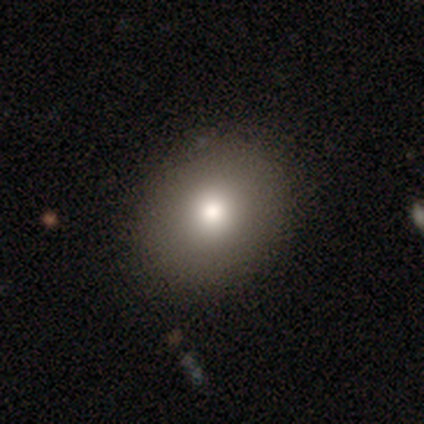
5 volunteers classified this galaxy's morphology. Smooth or featured?
  - smooth: 80% *
  - star or artifact: 20%
  - featured or disk: 0%
How rounded?
  - round: 100% *
  - in between: 0%
  - cigar-shaped: 0%
Merging?
  - none: 100% *
  - minor disturbance: 0%
  - major disturbance: 0%
  - merger: 0%